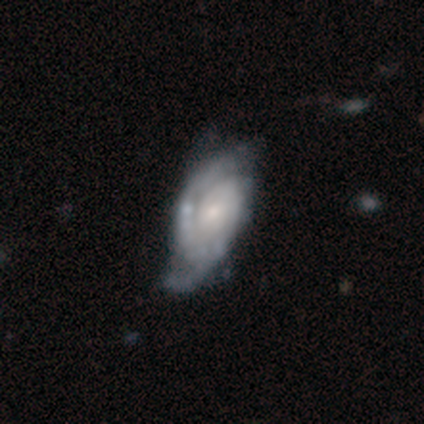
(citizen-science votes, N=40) featured or disk 88%, smooth 10%, star or artifact 2%. Down the decision tree: edge-on disk — no (91%); bar — no (69%); spiral arms — yes (94%); spiral arm count — 2 (57%); spiral winding — tight (60%); bulge size — small (53%); merging — none (44%).